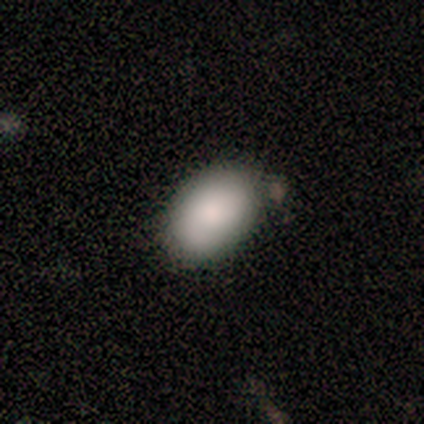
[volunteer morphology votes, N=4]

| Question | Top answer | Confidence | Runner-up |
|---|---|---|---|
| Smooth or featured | smooth | 100% | — |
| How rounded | in between | 75% | round (25%) |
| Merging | none | 75% | minor disturbance (25%) |